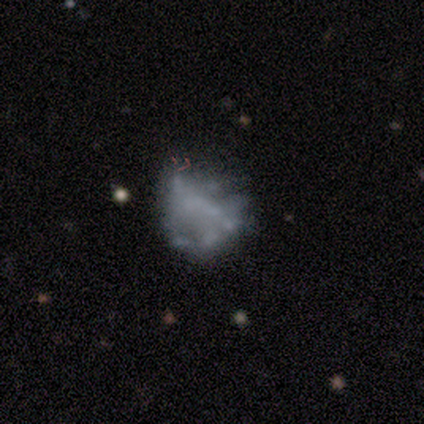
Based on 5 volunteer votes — A featured or disk galaxy (60%) with no bar (100%), no spiral arms (100%) and no central bulge (100%). Merging: major disturbance (60%).